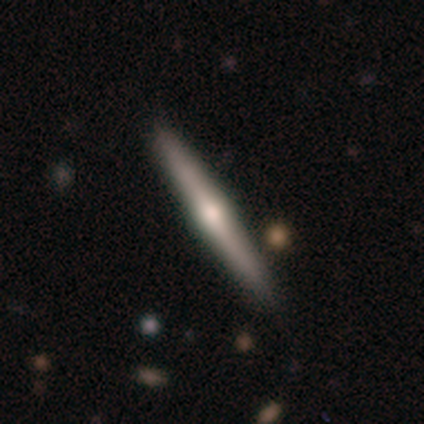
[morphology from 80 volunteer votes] smooth-or-featured: featured or disk: 66% | smooth: 29% | star or artifact: 5%
  disk-edge-on: yes: 100% | no: 0%
    edge-on-bulge: rounded: 91% | boxy: 9% | none: 0%
  merging: none: 46% | minor disturbance: 4% | merger: 4% | major disturbance: 0%